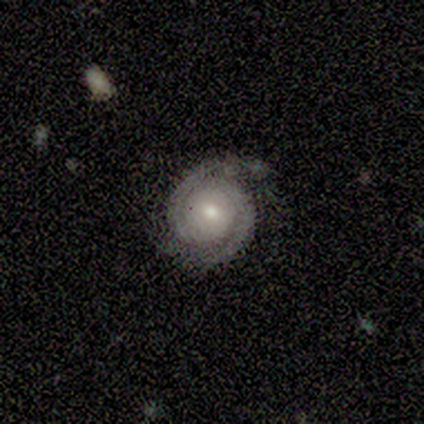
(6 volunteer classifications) Q: Smooth or featured?
A: featured or disk (100%)
Q: Edge-on disk?
A: no (100%)
Q: Bar?
A: no (83%); runner-up: weak (17%)
Q: Spiral arms?
A: yes (100%)
Q: Spiral winding?
A: tight (83%); runner-up: medium (17%)
Q: Spiral arm count?
A: 2 (100%)
Q: Bulge size?
A: moderate (50%); tied with: small (50%)
Q: Merging?
A: none (83%); runner-up: minor disturbance (17%)